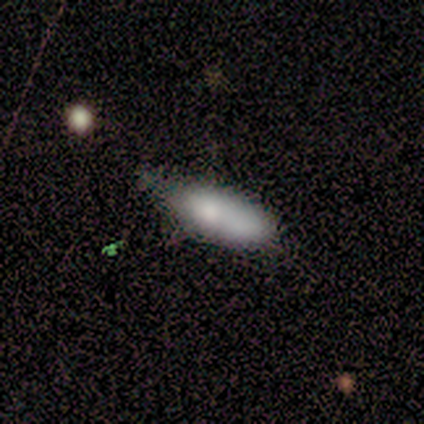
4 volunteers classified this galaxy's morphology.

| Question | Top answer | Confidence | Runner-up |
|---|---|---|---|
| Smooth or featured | smooth | 75% | star or artifact (25%) |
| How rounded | cigar-shaped | 67% | in between (33%) |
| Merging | none | 67% | minor disturbance (33%) |